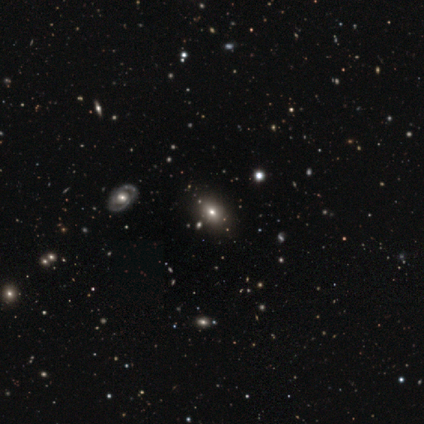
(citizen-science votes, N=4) A smooth galaxy with no disk features (75%) that is in between round and cigar-shaped (100%).

Vote fractions:
- Smooth or featured? smooth: 75% / star or artifact: 25% / featured or disk: 0%
- How rounded? in between: 100% / round: 0% / cigar-shaped: 0%
- Merging? none: 100% / minor disturbance: 0% / major disturbance: 0% / merger: 0%